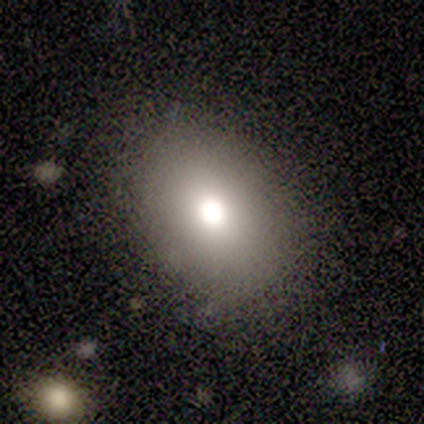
smooth 40% (tied), featured or disk 40% (tied), star or artifact 20%. Down the decision tree: how rounded — in between (100%); merging — none (75%).